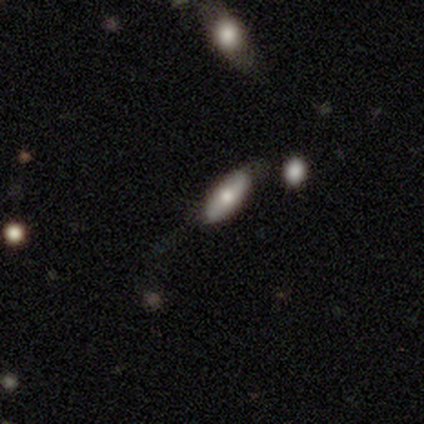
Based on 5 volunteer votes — A smooth galaxy with no disk features (80%) that is in between round and cigar-shaped (75%). Merging: none (75%).